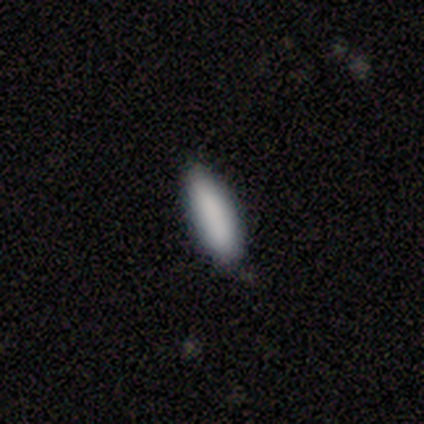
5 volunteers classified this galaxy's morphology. Smooth or featured: smooth — 80% (star or artifact — 20%)
How rounded: cigar-shaped — 75% (in between — 25%)
Merging: none — 100%